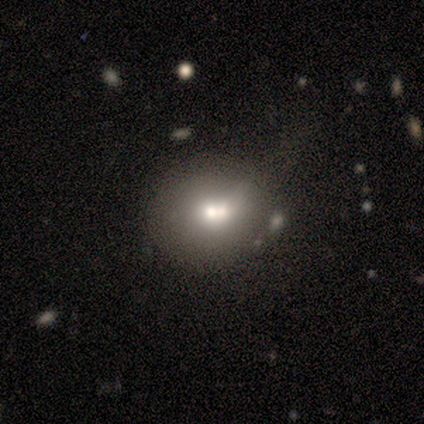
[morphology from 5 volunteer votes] This is marginally a smooth galaxy (40%, tied with star or artifact). How rounded: possibly round (50%, tied with in between). Merging: likely merger (67%).